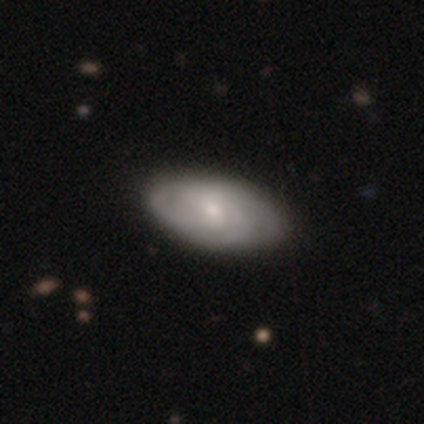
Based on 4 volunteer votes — Smooth or featured?
  - featured or disk: 75% *
  - star or artifact: 25%
  - smooth: 0%
Edge-on disk?
  - no: 100% *
  - yes: 0%
Bar?
  - no: 67% *
  - weak: 33%
  - strong: 0%
Spiral arms?
  - yes: 100% *
  - no: 0%
Spiral winding?
  - tight: 67% *
  - medium: 33%
  - loose: 0%
Spiral arm count?
  - 2: 33% * (tied)
  - 3: 33% * (tied)
  - 4: 33% * (tied)
  - 1: 0%
  - more than 4: 0%
  - can't tell: 0%
Bulge size?
  - small: 67% *
  - moderate: 33%
  - dominant: 0%
  - large: 0%
  - none: 0%
Merging?
  - none: 100% *
  - minor disturbance: 0%
  - major disturbance: 0%
  - merger: 0%